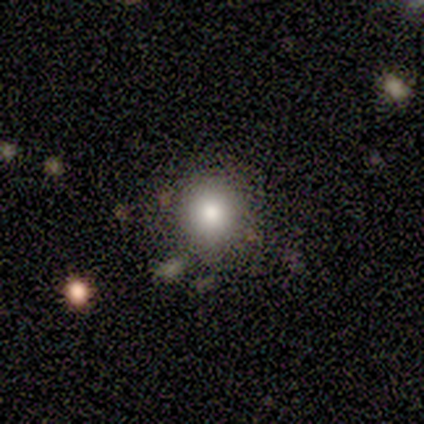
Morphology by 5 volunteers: Overall: smooth (80%). How rounded: round (100%). Merging: none (75%).